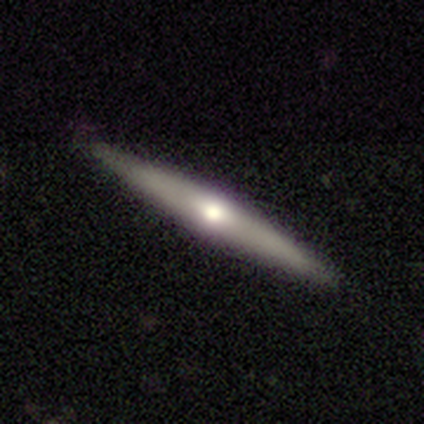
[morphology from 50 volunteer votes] Smooth or featured? featured or disk (64%)
Edge-on disk? yes (100%)
Edge-on bulge? rounded (81%)
Merging? none (98%)